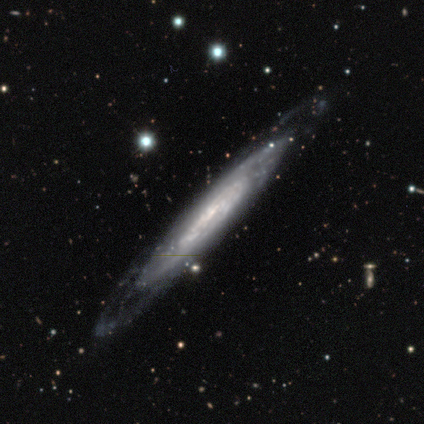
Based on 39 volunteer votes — featured or disk 82%, smooth 15%, star or artifact 3%. Down the decision tree: edge-on disk — yes (72%); edge-on bulge — none (78%); merging — none (74%).